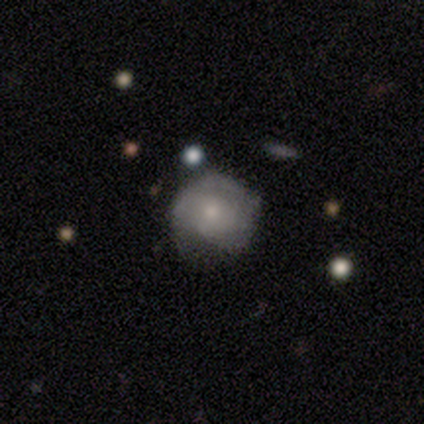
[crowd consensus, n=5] Overall: featured or disk (60%; smooth 40%). Edge-on disk: no (100%). Bar: no (67%; weak 33%). Spiral arms: yes (100%). Spiral arm count: can't tell (67%; 3 33%). Spiral winding: tight (33%, tied with medium and loose). Bulge size: moderate (33%, tied with small and none). Merging: none (80%).